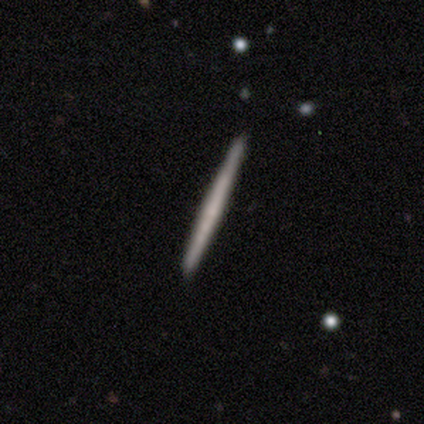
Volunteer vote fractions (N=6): smooth_or_featured: smooth (p=0.67) [alt: featured or disk p=0.33]
how_rounded: cigar-shaped (p=1.00)
merging: none (p=1.00)